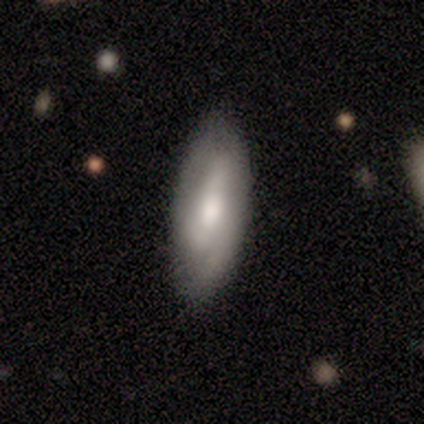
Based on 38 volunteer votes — smooth 53%, featured or disk 45%, star or artifact 3%. Down the decision tree: how rounded — in between (70%); merging — none (84%).